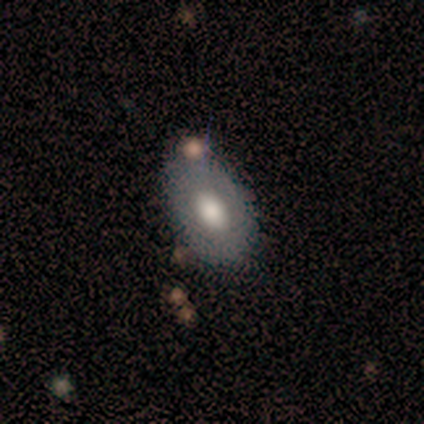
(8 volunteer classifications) Volunteers were most divided on "smooth or featured": featured or disk: 62%, smooth: 38%, star or artifact: 0%. More confident: edge-on disk — no (100%); spiral arms — no (100%); bar — no (80%); bulge size — moderate (80%); merging — none (62%).